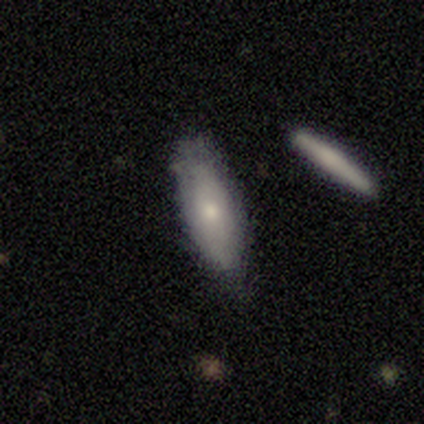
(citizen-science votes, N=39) Morphology: type=smooth (67%); roundness=in between (73%); merging=none (60%).